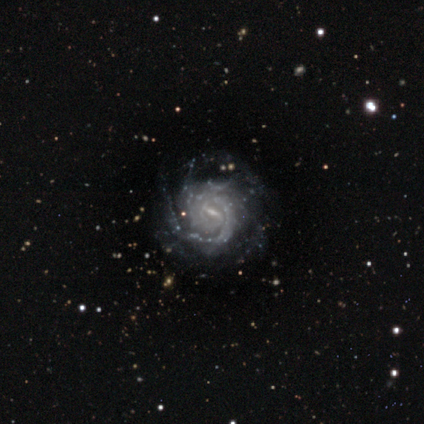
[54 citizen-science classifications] Smooth or featured? 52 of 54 (96%) said featured or disk. Edge-on disk? 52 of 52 (100%) said no. Bar? 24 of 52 (46%) said strong. Spiral arms? 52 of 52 (100%) said yes. Spiral winding? 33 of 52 (63%) said tight. Spiral arm count? 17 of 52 (33%) said can't tell. Bulge size? 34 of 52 (65%) said small. Merging? 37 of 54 (69%) said none.